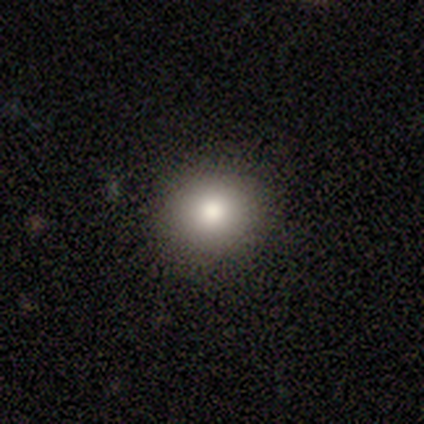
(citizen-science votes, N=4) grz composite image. It shows a smooth galaxy with no disk features (100%) that is round (100%). Merging: none (75%).